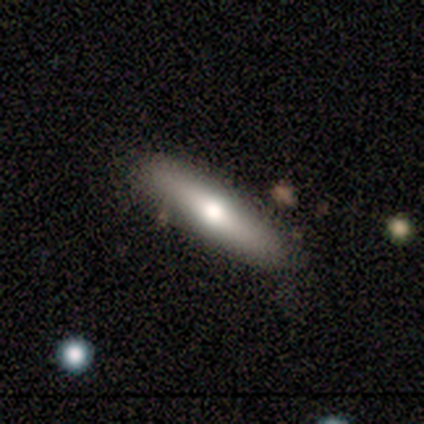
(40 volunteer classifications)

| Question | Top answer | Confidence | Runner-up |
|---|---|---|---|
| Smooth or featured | smooth | 60% | featured or disk (28%) |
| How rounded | cigar-shaped | 92% | in between (8%) |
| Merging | none | 83% | minor disturbance (14%) |